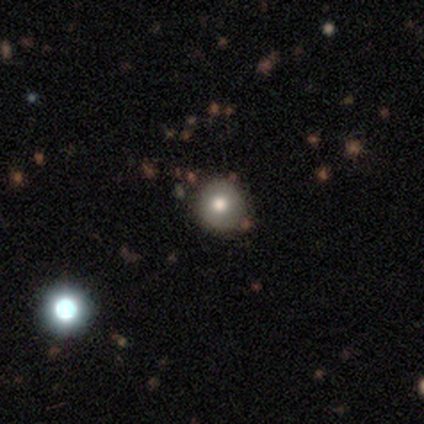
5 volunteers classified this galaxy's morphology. Smooth or featured?
  - smooth: 100% *
  - featured or disk: 0%
  - star or artifact: 0%
How rounded?
  - round: 100% *
  - in between: 0%
  - cigar-shaped: 0%
Merging?
  - none: 60% *
  - minor disturbance: 20%
  - major disturbance: 20%
  - merger: 0%